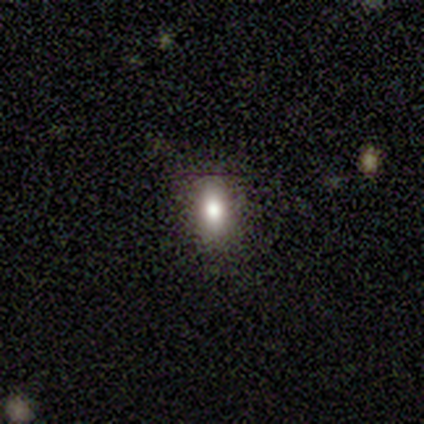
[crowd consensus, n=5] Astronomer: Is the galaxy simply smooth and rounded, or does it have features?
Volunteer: smooth — 80%.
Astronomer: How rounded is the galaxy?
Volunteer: in between — 75%.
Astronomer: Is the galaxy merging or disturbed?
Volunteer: none — 100%.